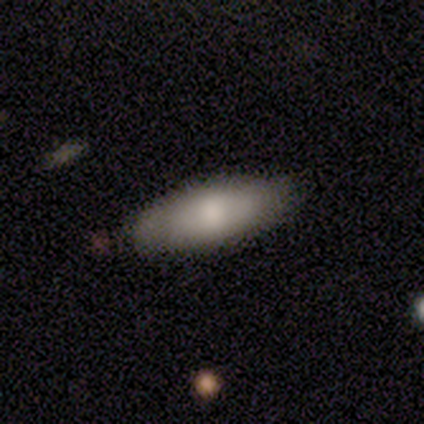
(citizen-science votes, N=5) Smooth or featured: smooth — 60% (featured or disk — 20%)
How rounded: in between — 67% (cigar-shaped — 33%)
Merging: none — 50% (tied with minor disturbance — 50%)